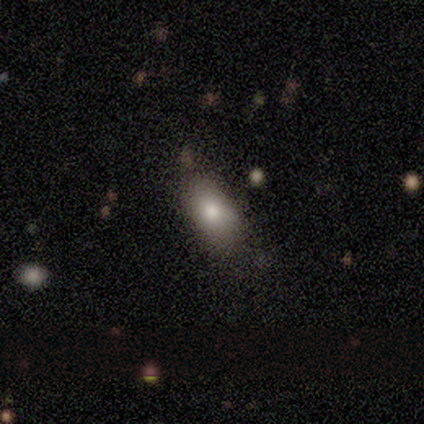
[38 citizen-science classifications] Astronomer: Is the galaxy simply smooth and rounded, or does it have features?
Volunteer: smooth — 74%.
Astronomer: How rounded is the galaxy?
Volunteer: in between — 89%.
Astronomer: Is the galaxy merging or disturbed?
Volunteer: none — 88%.